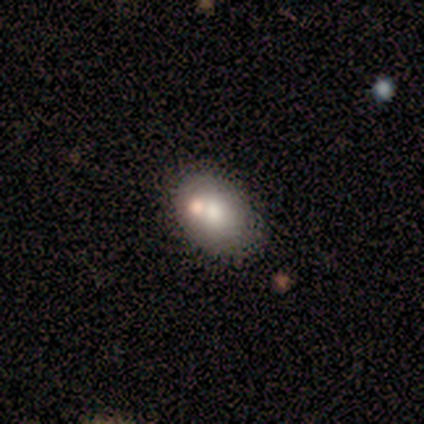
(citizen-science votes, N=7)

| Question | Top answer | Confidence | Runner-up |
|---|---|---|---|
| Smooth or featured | smooth | 43% | tied: featured or disk (43%) |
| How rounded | in between | 67% | round (33%) |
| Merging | none | 100% | — |